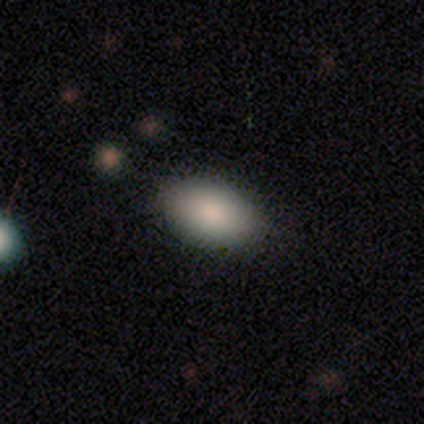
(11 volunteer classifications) Smooth or featured?
  - smooth: 82% *
  - featured or disk: 9%
  - star or artifact: 9%
How rounded?
  - in between: 100% *
  - round: 0%
  - cigar-shaped: 0%
Merging?
  - none: 80% *
  - minor disturbance: 20%
  - major disturbance: 0%
  - merger: 0%